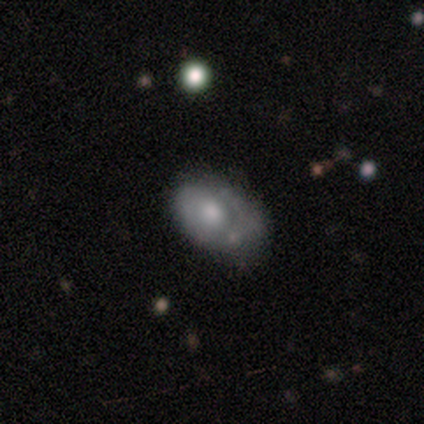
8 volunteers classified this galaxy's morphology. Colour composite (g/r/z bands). It shows a featured or disk galaxy (62%) with no bar (100%), no spiral arms (60%) and a small central bulge (60%). Merging: none (62%).